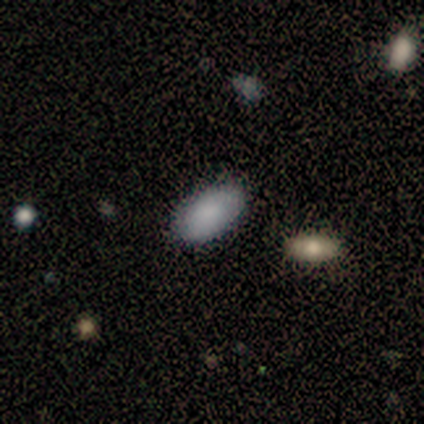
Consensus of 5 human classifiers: Overall: smooth (80%). How rounded: in between (100%). Merging: none (100%).